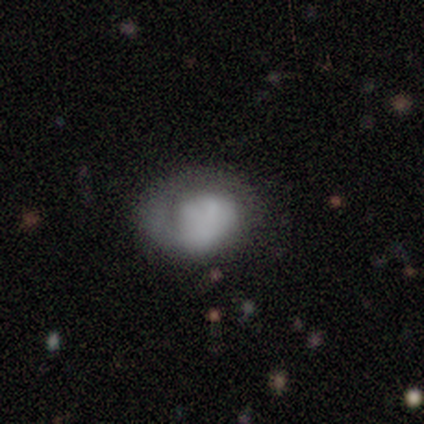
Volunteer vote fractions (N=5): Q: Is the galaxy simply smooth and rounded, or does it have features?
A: featured or disk — 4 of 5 (80%).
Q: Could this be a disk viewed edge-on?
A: no — 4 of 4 (100%).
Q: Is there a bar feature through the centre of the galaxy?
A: no — 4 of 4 (100%).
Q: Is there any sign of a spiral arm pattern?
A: yes — 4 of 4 (100%).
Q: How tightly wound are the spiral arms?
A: tight — 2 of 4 (50%, tied with medium).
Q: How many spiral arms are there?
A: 1 — 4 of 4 (100%).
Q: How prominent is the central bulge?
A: none — 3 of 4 (75%).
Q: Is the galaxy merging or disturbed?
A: none — 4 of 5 (80%).